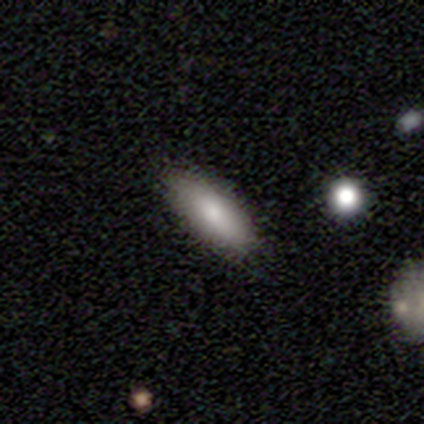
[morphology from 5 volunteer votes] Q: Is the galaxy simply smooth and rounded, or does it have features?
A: smooth — 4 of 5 (80%).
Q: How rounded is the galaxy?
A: in between — 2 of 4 (50%, tied with cigar-shaped).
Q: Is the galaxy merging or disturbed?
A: none — 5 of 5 (100%).